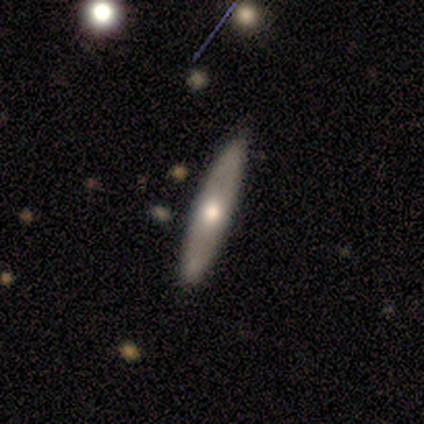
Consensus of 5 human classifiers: smooth_or_featured: featured or disk (p=0.60) [alt: smooth p=0.40]
disk_edge_on: yes (p=0.67) [alt: no p=0.33]
edge_on_bulge: rounded (p=1.00)
merging: none (p=1.00)